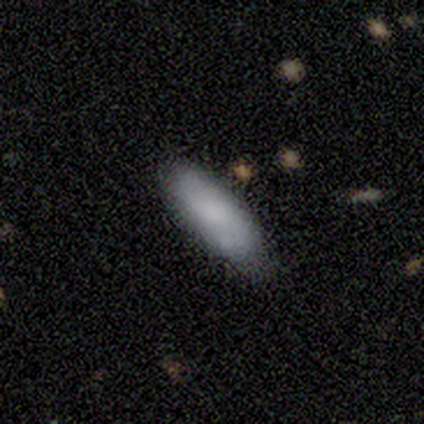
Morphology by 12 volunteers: Volunteers were most divided on "how rounded" (2-way tie): in between: 50%, cigar-shaped: 50%, round: 0%. More confident: merging — none (73%); smooth or featured — smooth (67%).